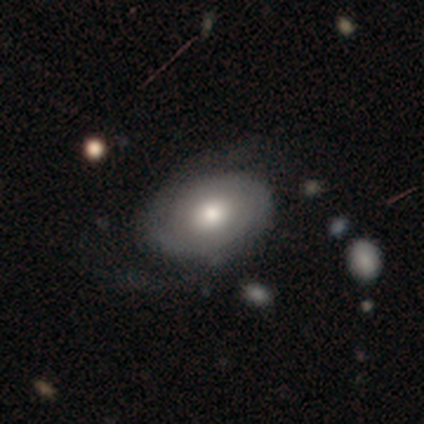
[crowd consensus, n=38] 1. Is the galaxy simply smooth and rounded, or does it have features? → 58% featured or disk, 37% smooth, 5% star or artifact.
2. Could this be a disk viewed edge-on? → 91% no, 9% yes.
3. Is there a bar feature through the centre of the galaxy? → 90% no, 10% weak, 0% strong.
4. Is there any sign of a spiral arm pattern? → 90% yes, 10% no.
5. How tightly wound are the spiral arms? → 61% tight, 28% medium, 11% loose.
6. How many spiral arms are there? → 61% 2, 28% can't tell, 6% 1, 6% 4, 0% 3, 0% more than 4.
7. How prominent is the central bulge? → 55% moderate, 20% large, 15% small, 10% dominant, 0% none.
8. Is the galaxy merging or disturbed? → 50% none, 22% minor disturbance, 22% major disturbance, 6% merger.